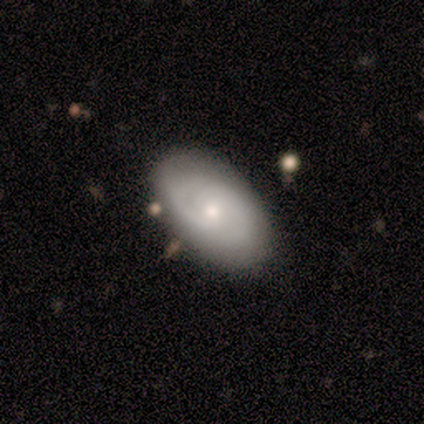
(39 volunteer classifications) smooth-or-featured: featured or disk: 56% | smooth: 38% | star or artifact: 5%
  disk-edge-on: no: 100% | yes: 0%
    bar: no: 86% | weak: 14% | strong: 0%
    has-spiral-arms: yes: 77% | no: 23%
      spiral-winding: tight: 71% | medium: 29% | loose: 0%
      spiral-arm-count: 2: 76% | can't tell: 12% | 1: 6% | 3: 6% | 4: 0% | more than 4: 0%
    bulge-size: small: 55% | moderate: 45% | dominant: 0% | large: 0% | none: 0%
  merging: none: 76% | minor disturbance: 16% | merger: 5% | major disturbance: 3%